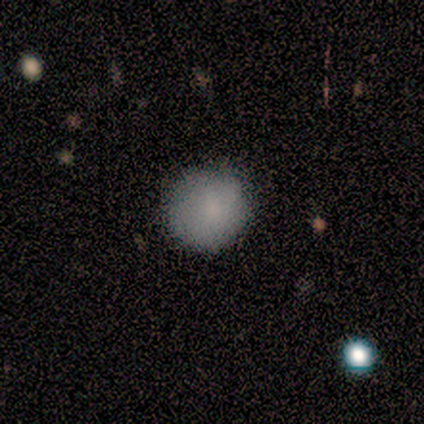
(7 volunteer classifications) Overall: smooth (71%). How rounded: round (100%). Merging: none (86%).